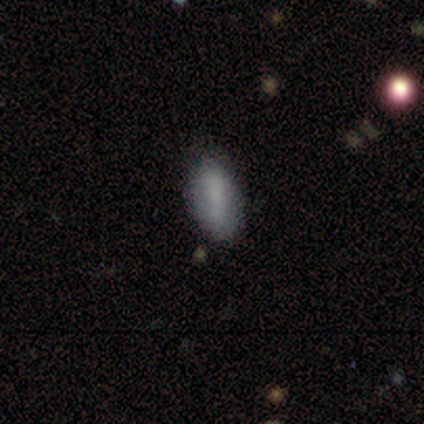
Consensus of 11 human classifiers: This is likely a smooth galaxy (73%). How rounded: clearly in between (88%). Merging: likely none (64%).